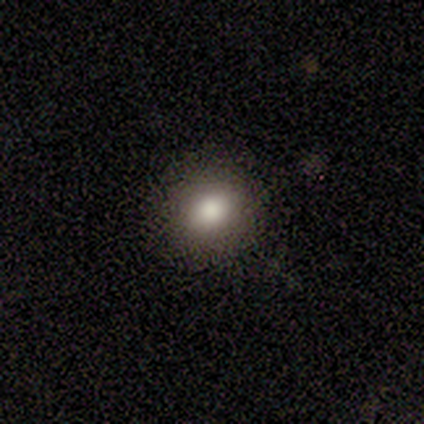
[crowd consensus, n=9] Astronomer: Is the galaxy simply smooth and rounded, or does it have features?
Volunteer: smooth — 89%.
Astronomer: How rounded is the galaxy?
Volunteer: round — 50% (runner-up: in between, 38%).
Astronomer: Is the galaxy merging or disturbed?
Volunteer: none — 100%.